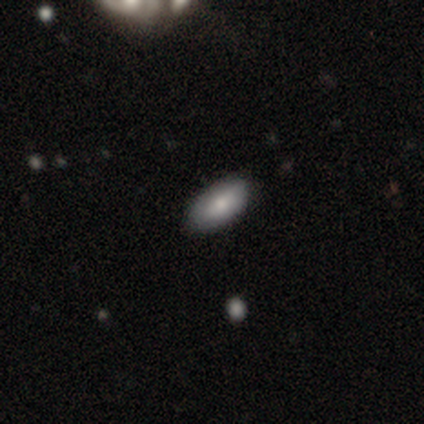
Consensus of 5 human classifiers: Morphology: type=smooth (100%); roundness=in between (100%); merging=none (100%).